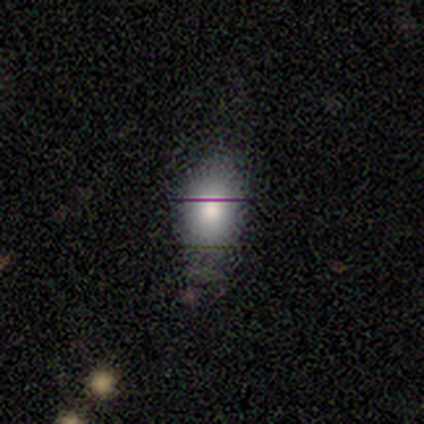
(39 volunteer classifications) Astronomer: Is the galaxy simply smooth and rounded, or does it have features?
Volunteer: smooth — 74%.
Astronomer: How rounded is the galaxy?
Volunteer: in between — 69%.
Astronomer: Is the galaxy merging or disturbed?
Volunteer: none — 65%.